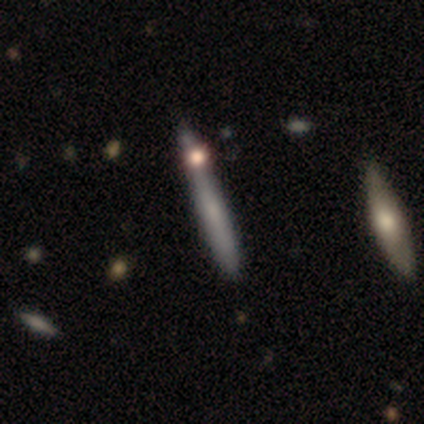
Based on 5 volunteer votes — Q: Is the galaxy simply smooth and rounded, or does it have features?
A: smooth — 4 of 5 (80%).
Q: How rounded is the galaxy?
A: cigar-shaped — 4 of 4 (100%).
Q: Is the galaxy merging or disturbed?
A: none — 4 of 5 (80%).